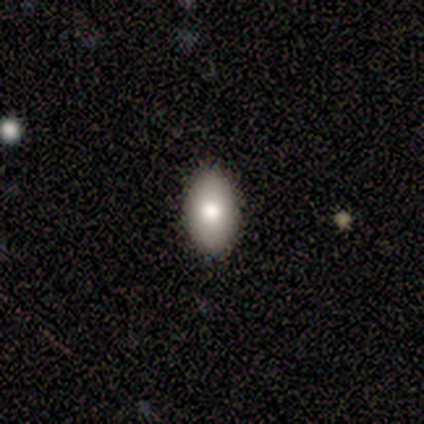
smooth-or-featured: smooth: 100% | featured or disk: 0% | star or artifact: 0%
  how-rounded: in between: 100% | round: 0% | cigar-shaped: 0%
  merging: none: 100% | minor disturbance: 0% | major disturbance: 0% | merger: 0%